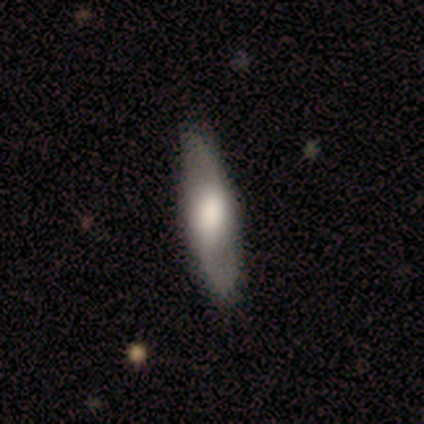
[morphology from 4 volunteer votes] A featured or disk galaxy (75%) with a strong bar (33%, tied with weak and no), 2 (100%) medium (67%) spiral arms (100%) and a moderate central bulge (67%). Merging: none (100%).